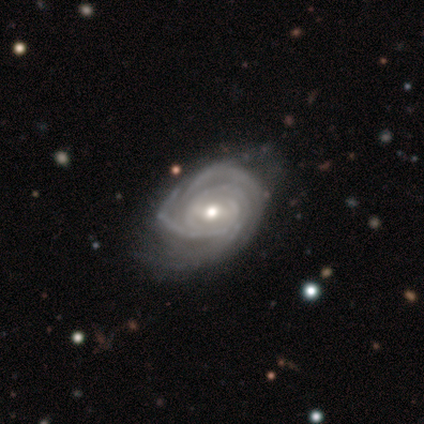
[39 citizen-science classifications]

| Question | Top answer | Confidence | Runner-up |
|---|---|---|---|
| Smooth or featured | featured or disk | 90% | star or artifact (8%) |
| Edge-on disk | no | 100% | — |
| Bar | no | 46% | weak (43%) |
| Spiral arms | yes | 100% | — |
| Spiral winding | tight | 83% | medium (14%) |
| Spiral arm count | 3 | 49% | can't tell (23%) |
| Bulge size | moderate | 54% | small (37%) |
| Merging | none | 56% | minor disturbance (36%) |